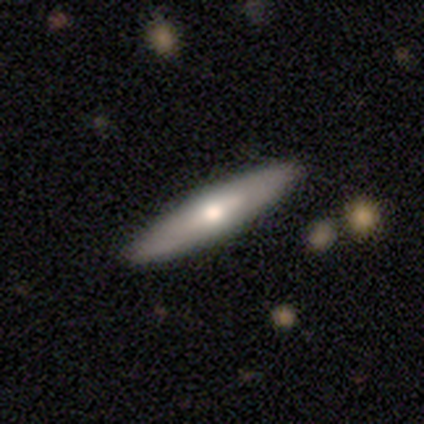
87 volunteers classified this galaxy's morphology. smooth-or-featured: featured or disk: 62% | smooth: 34% | star or artifact: 3%
  disk-edge-on: yes: 80% | no: 20%
    edge-on-bulge: rounded: 88% | none: 12% | boxy: 0%
  merging: none: 87% | minor disturbance: 10% | major disturbance: 2% | merger: 1%